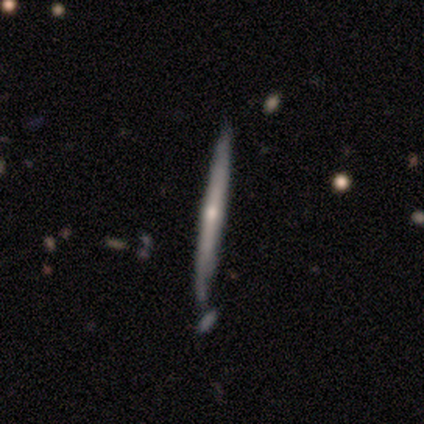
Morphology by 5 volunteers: Smooth or featured?
  - featured or disk: 60% *
  - smooth: 40%
  - star or artifact: 0%
Edge-on disk?
  - yes: 100% *
  - no: 0%
Edge-on bulge?
  - rounded: 100% *
  - boxy: 0%
  - none: 0%
Merging?
  - none: 60% *
  - minor disturbance: 40%
  - major disturbance: 0%
  - merger: 0%